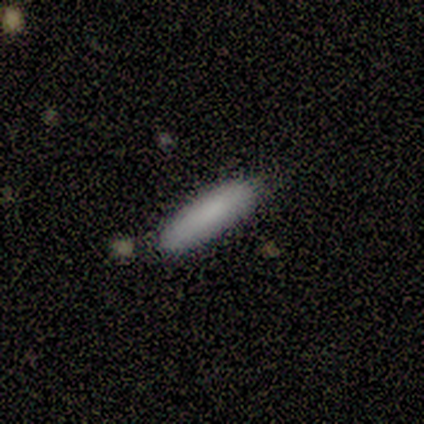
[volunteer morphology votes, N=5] Smooth or featured? 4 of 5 (80%) said smooth. How rounded? 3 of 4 (75%) said cigar-shaped. Merging? 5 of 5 (100%) said none.